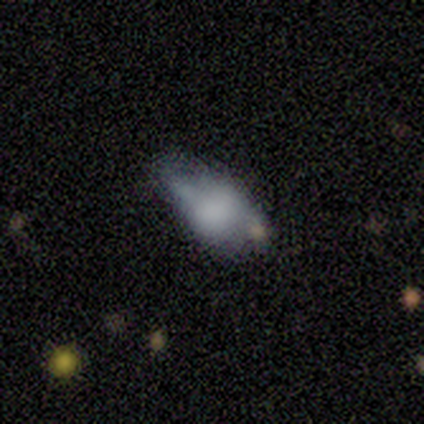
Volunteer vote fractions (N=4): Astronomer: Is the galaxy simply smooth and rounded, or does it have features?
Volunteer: smooth — 100%.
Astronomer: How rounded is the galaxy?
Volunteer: in between — 100%.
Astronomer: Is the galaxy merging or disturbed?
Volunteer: minor disturbance — 50%.